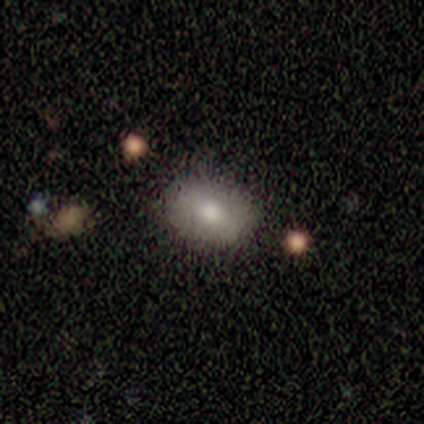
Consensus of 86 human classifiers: This appears to be a smooth galaxy with no disk features (73%) that is in between round and cigar-shaped (76%). Merging: none (84%).